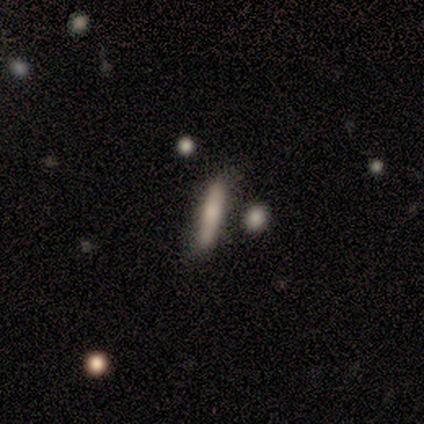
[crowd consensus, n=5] This is likely a smooth galaxy (60%). How rounded: clearly cigar-shaped (100%). Merging: clearly none (80%).